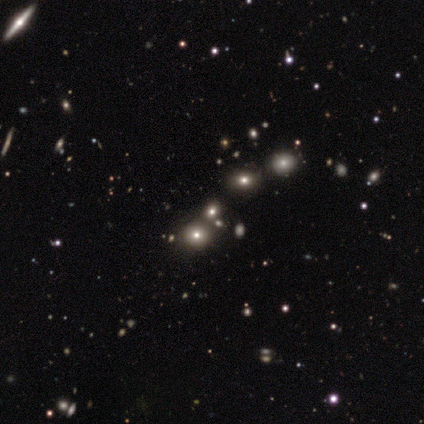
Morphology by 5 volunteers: This appears to be a smooth galaxy with no disk features (60%) that is round (100%). Merging: none (100%).